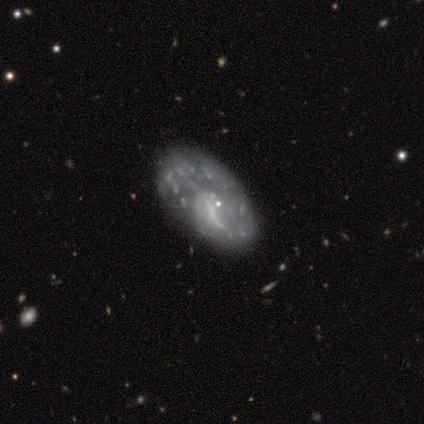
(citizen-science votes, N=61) Smooth or featured? 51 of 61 (84%) said featured or disk. Edge-on disk? 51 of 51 (100%) said no. Bar? 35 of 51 (69%) said no. Spiral arms? 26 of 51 (51%) said yes. Spiral winding? 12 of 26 (46%) said loose. Spiral arm count? 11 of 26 (42%) said 1. Bulge size? 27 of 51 (53%) said none. Merging? 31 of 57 (54%) said none.